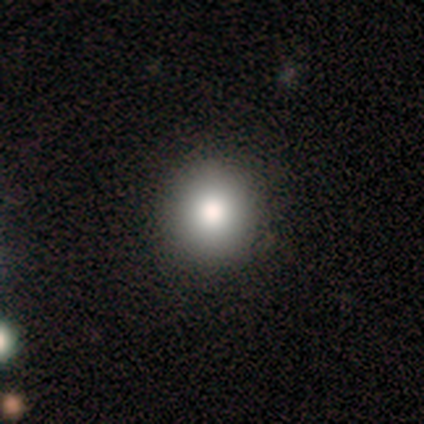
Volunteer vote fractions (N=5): smooth-or-featured: smooth: 100% | featured or disk: 0% | star or artifact: 0%
  how-rounded: round: 100% | in between: 0% | cigar-shaped: 0%
  merging: none: 100% | minor disturbance: 0% | major disturbance: 0% | merger: 0%